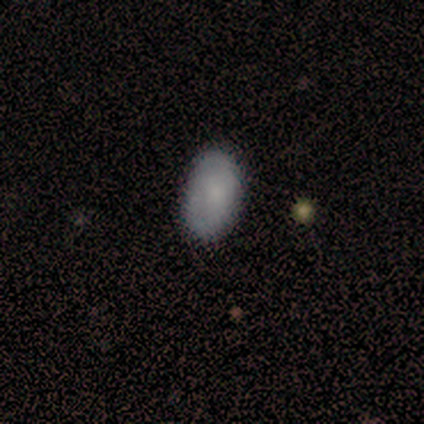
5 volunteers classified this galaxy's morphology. This appears to be a smooth galaxy with no disk features (100%) that is in between round and cigar-shaped (80%). Merging: none (80%).